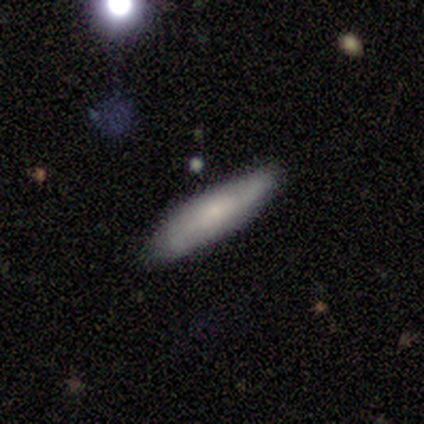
This appears to be a smooth galaxy with no disk features (40%, tied with featured or disk) that is in between round and cigar-shaped (50%, tied with cigar-shaped). Merging: none (100%).